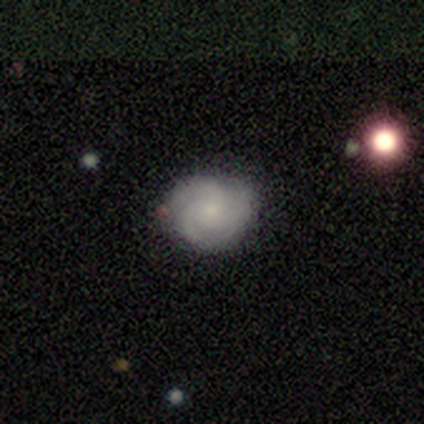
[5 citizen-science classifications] Smooth or featured? 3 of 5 (60%) said featured or disk. Edge-on disk? 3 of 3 (100%) said no. Bar? 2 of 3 (67%) said no. Spiral arms? 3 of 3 (100%) said yes. Spiral winding? 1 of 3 (33%, tied with medium and loose) said tight. Spiral arm count? 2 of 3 (67%) said 3. Bulge size? 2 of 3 (67%) said small. Merging? 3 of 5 (60%) said none.